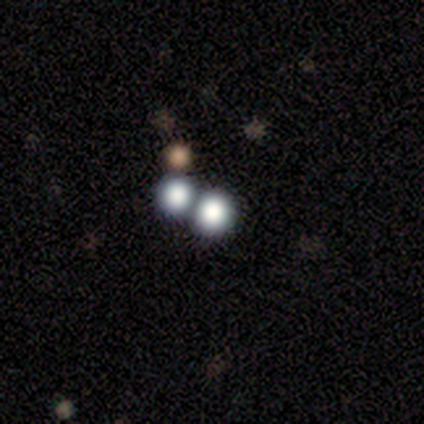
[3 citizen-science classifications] A smooth galaxy with no disk features (100%) that is round (100%).

Vote fractions:
- Smooth or featured? smooth: 100% / featured or disk: 0% / star or artifact: 0%
- How rounded? round: 100% / in between: 0% / cigar-shaped: 0%
- Merging? none: 67% / merger: 33% / minor disturbance: 0% / major disturbance: 0%